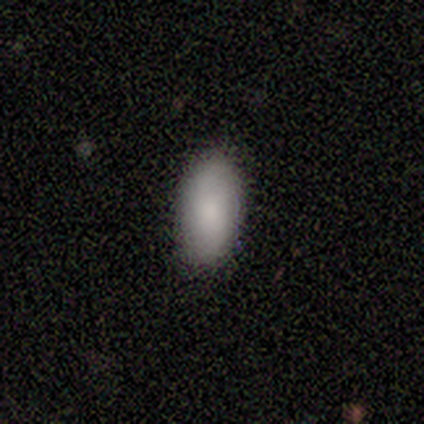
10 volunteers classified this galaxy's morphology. Smooth or featured: smooth — 90% (featured or disk — 10%)
How rounded: in between — 89% (cigar-shaped — 11%)
Merging: none — 100%